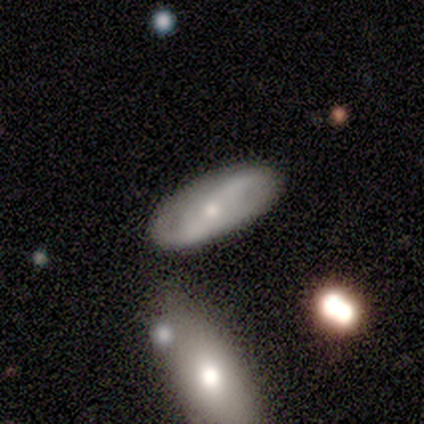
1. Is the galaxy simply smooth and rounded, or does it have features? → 50% smooth (tied), 50% featured or disk (tied), 0% star or artifact.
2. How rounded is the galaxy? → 100% in between, 0% round, 0% cigar-shaped.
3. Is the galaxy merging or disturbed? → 100% none, 0% minor disturbance, 0% major disturbance, 0% merger.